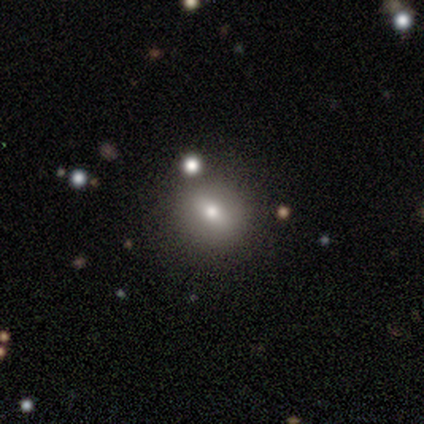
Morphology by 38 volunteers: Smooth or featured: smooth — 63% (featured or disk — 18%)
How rounded: round — 62% (in between — 38%)
Merging: none — 97% (minor disturbance — 3%)